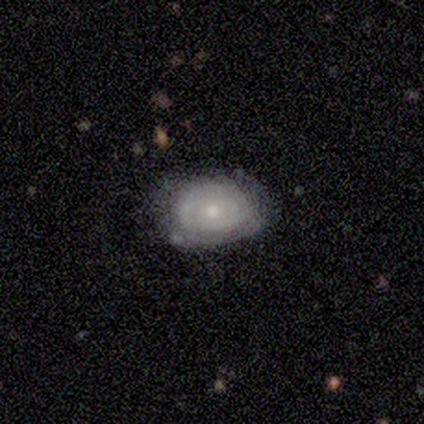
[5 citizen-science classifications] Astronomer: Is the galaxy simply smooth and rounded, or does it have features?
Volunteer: featured or disk — 80%.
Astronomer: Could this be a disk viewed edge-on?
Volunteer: no — 100%.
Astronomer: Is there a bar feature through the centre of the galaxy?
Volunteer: no — 75%.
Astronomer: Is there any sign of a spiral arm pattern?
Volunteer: yes — 75%.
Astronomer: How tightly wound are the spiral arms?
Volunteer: tight — 67%.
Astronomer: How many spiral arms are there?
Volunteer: can't tell — 67%.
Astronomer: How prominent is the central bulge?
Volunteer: moderate — 50%, tied with small at 50%.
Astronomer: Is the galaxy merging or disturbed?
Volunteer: none — 80%.